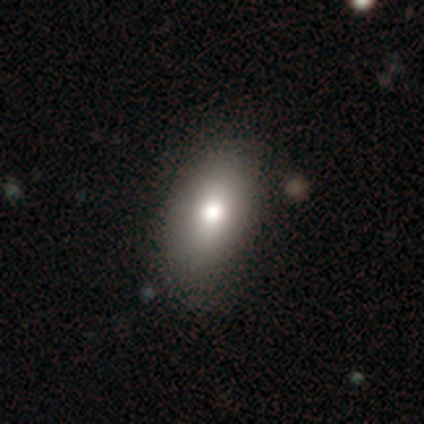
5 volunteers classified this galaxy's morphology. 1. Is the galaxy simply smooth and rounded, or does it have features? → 100% smooth, 0% featured or disk, 0% star or artifact.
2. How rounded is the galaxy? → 100% in between, 0% round, 0% cigar-shaped.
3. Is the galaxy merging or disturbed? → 60% none, 40% minor disturbance, 0% major disturbance, 0% merger.